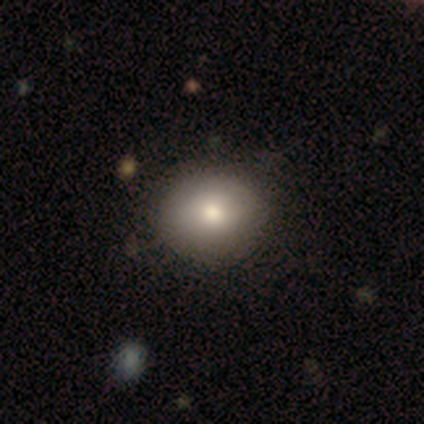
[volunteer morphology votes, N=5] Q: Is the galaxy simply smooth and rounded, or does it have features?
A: smooth — 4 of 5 (80%).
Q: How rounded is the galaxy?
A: round — 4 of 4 (100%).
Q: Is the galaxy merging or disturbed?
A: none — 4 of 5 (80%).